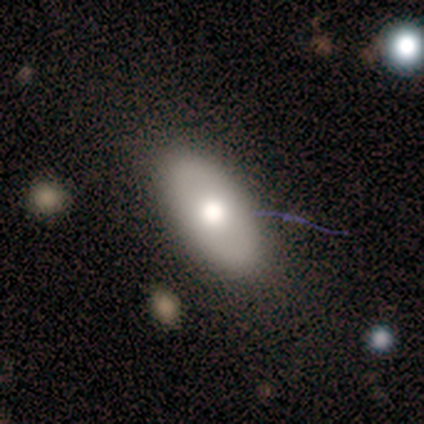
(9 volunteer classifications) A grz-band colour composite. It shows a smooth galaxy with no disk features (78%) that is in between round and cigar-shaped (100%). Merging: none (100%).